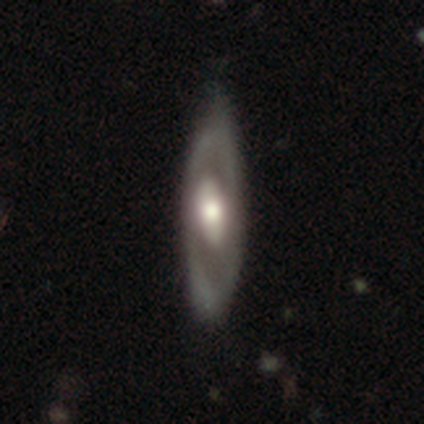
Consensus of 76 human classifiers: Smooth or featured?
  - featured or disk: 74% *
  - smooth: 21%
  - star or artifact: 5%
Edge-on disk?
  - no: 80% *
  - yes: 20%
Bar?
  - no: 56% *
  - weak: 29%
  - strong: 16%
Spiral arms?
  - no: 67% *
  - yes: 33%
Bulge size?
  - moderate: 60% *
  - large: 33%
  - dominant: 2%
  - small: 2%
  - none: 2%
Merging?
  - none: 51% *
  - minor disturbance: 8%
  - major disturbance: 0%
  - merger: 0%